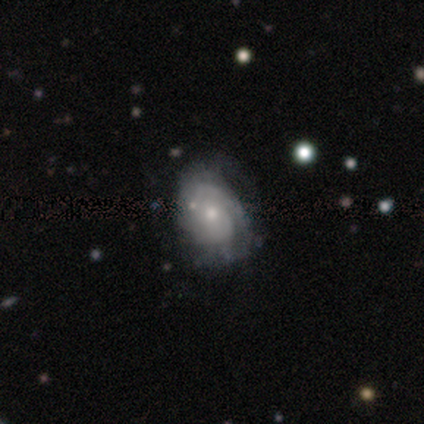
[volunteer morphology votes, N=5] This appears to be a featured or disk galaxy (60%) with no bar (67%), 1 (33%, tied with 2 and 3) tight (67%) spiral arms (100%) and a small central bulge (67%). Merging: none (80%).